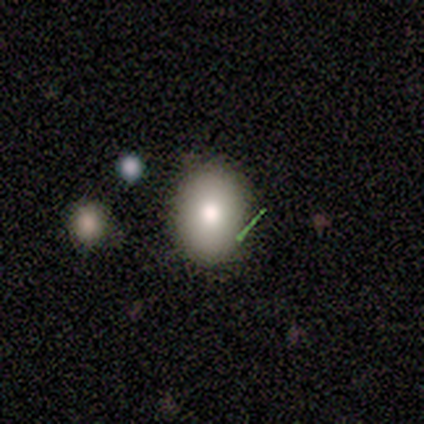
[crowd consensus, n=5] Smooth or featured? smooth (100%)
How rounded? in between (60%)
Merging? none (80%)